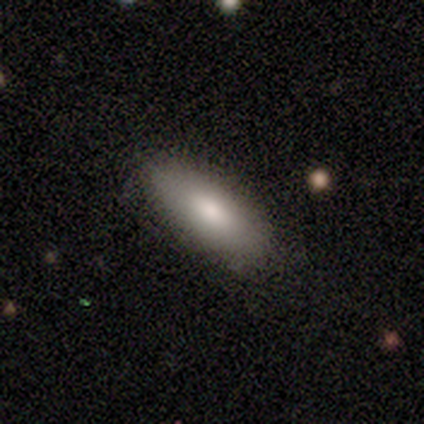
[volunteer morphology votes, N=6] Smooth or featured? smooth (100%)
How rounded? in between (83%)
Merging? none (67%)